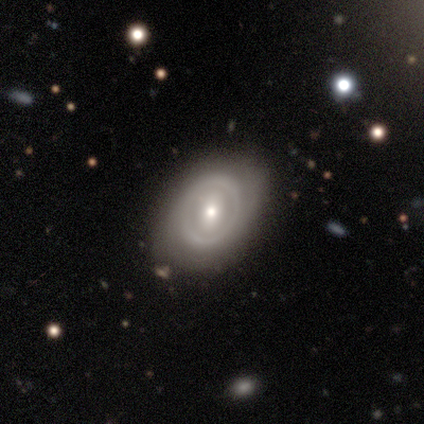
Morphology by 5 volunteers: Overall: featured or disk (60%; smooth 40%). Edge-on disk: no (100%). Bar: no (100%). Spiral arms: no (100%). Bulge size: small (67%; moderate 33%). Merging: minor disturbance (60%; none 40%).